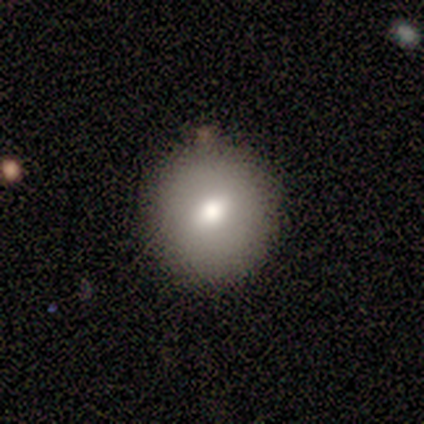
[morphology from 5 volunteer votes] smooth_or_featured: smooth (p=0.80) [alt: featured or disk p=0.20]
how_rounded: round (p=1.00)
merging: none (p=1.00)